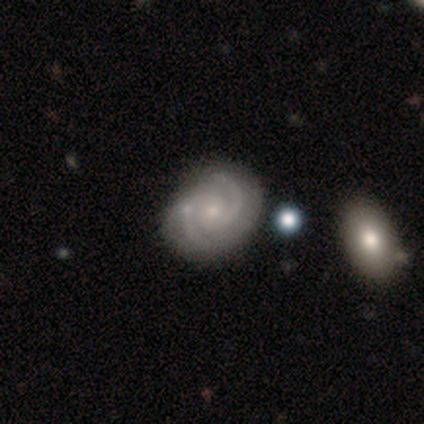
smooth_or_featured: featured or disk (p=0.95) [alt: star or artifact p=0.05]
disk_edge_on: no (p=1.00)
bar: no (p=0.76) [alt: weak p=0.22]
has_spiral_arms: yes (p=1.00)
spiral_winding: medium (p=0.62) [alt: tight p=0.32]
spiral_arm_count: 2 (p=0.89) [alt: can't tell p=0.08]
bulge_size: small (p=0.86) [alt: moderate p=0.08]
merging: none (p=0.59) [alt: minor disturbance p=0.11]